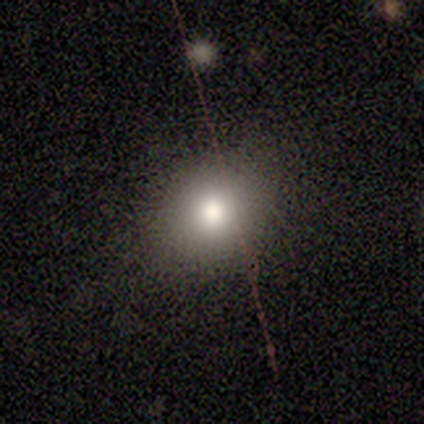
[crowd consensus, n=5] A smooth galaxy with no disk features (60%) that is round (67%).

Vote fractions:
- Smooth or featured? smooth: 60% / featured or disk: 20% / star or artifact: 20%
- How rounded? round: 67% / in between: 33% / cigar-shaped: 0%
- Merging? none: 100% / minor disturbance: 0% / major disturbance: 0% / merger: 0%